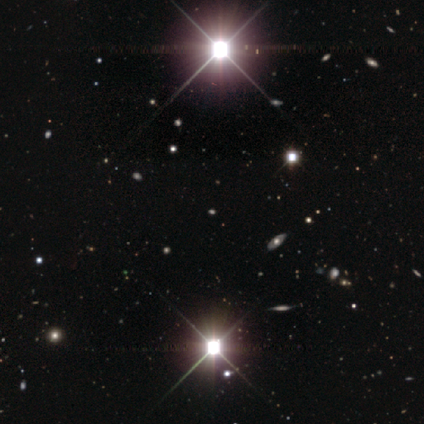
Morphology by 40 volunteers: Overall: star or artifact (80%).